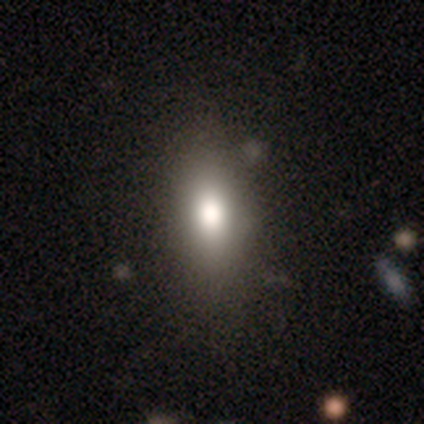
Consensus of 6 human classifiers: Smooth or featured? smooth (83%)
How rounded? in between (100%)
Merging? none (60%)